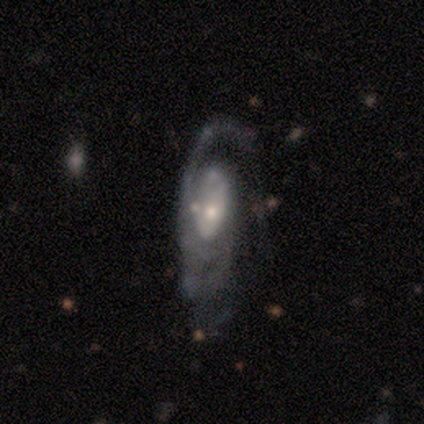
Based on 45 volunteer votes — Smooth or featured? featured or disk (87%)
Edge-on disk? no (90%)
Bar? no (71%)
Spiral arms? yes (91%)
Spiral winding? tight (47%)
Spiral arm count? can't tell (34%)
Bulge size? small (51%)
Merging? none (42%)